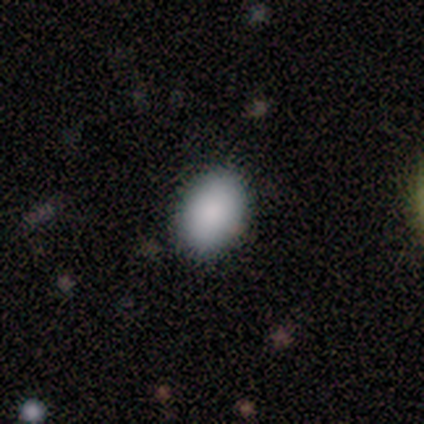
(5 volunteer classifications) smooth 100%, featured or disk 0%, star or artifact 0%. Down the decision tree: how rounded — in between (60%); merging — none (100%).